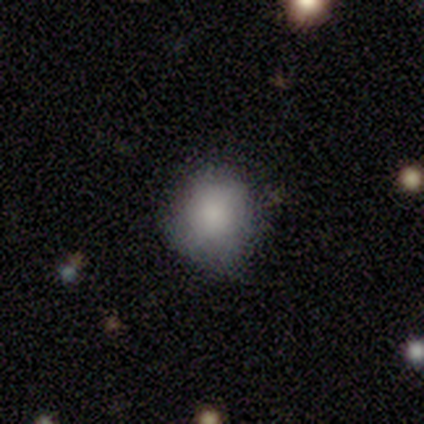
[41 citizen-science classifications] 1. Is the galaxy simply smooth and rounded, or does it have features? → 76% smooth, 22% featured or disk, 2% star or artifact.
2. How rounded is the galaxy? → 77% round, 23% in between, 0% cigar-shaped.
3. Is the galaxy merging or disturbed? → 82% none, 18% minor disturbance, 0% major disturbance, 0% merger.